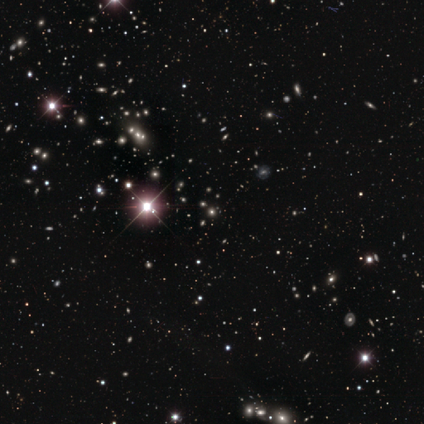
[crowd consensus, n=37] Smooth or featured?
  - star or artifact: 84% *
  - featured or disk: 11%
  - smooth: 5%